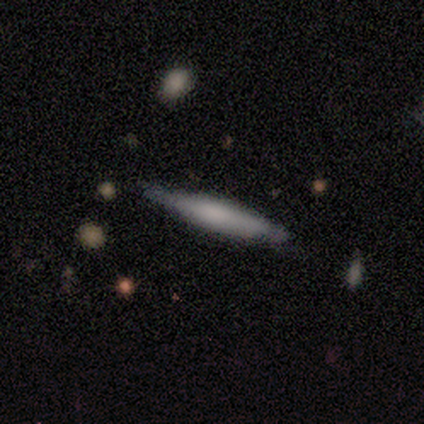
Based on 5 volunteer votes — Smooth or featured? smooth (80%)
How rounded? cigar-shaped (100%)
Merging? none (40%, tied with minor disturbance)